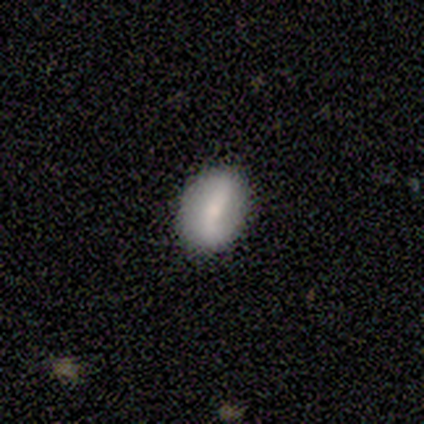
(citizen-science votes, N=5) smooth-or-featured: featured or disk: 60% | smooth: 40% | star or artifact: 0%
  disk-edge-on: no: 67% | yes: 33%
    bar: strong: 50% (tied) | weak: 50% (tied) | no: 0%
    has-spiral-arms: yes: 50% (tied) | no: 50% (tied)
      spiral-winding: loose: 100% | tight: 0% | medium: 0%
      spiral-arm-count: 2: 100% | 1: 0% | 3: 0% | 4: 0% | more than 4: 0% | can't tell: 0%
    bulge-size: small: 50% (tied) | none: 50% (tied) | dominant: 0% | large: 0% | moderate: 0%
  merging: none: 80% | minor disturbance: 20% | major disturbance: 0% | merger: 0%